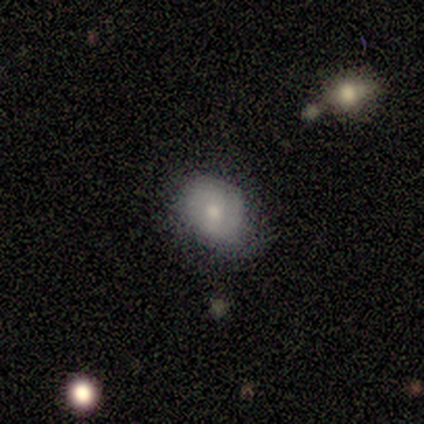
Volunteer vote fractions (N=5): Volunteers were most divided on "smooth or featured" (2-way tie): smooth: 40%, featured or disk: 40%, star or artifact: 20%; "merging" (2-way tie): none: 50%, major disturbance: 50%, minor disturbance: 0%, merger: 0%. More confident: how rounded — round (100%).